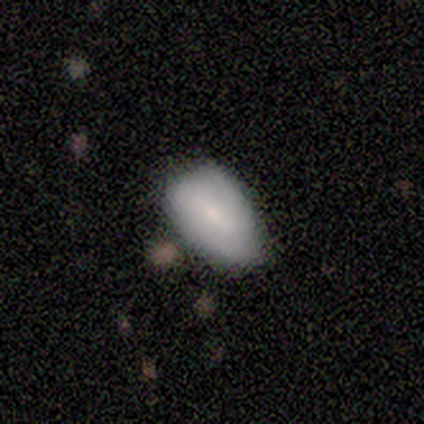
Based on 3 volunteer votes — Volunteers were most divided on "bar" (2-way tie): weak: 50%, no: 50%, strong: 0%; "spiral winding" (2-way tie): medium: 50%, loose: 50%, tight: 0%; "spiral arm count" (2-way tie): 1: 50%, can't tell: 50%, 2: 0%, 3: 0%, 4: 0%, more than 4: 0%. More confident: edge-on disk — no (100%); spiral arms — yes (100%); bulge size — small (100%); smooth or featured — featured or disk (67%); merging — minor disturbance (67%).